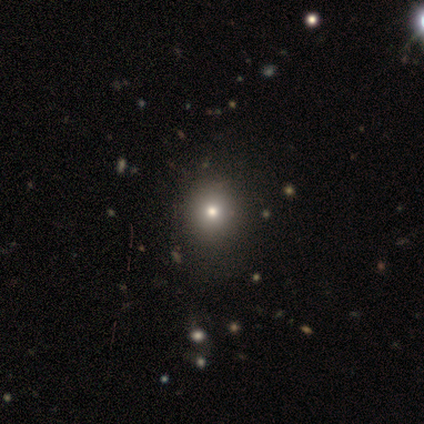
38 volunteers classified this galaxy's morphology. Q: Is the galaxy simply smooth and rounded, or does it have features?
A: smooth — 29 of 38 (76%).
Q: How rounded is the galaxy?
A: round — 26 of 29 (90%).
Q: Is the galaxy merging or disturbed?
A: none — 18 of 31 (58%).